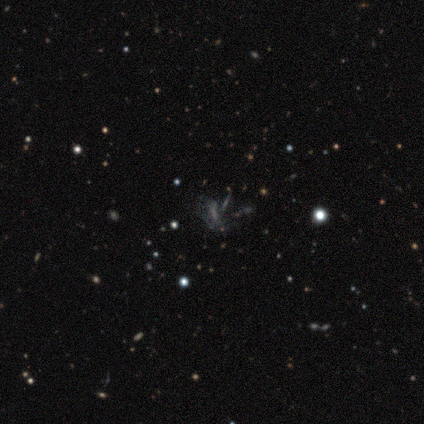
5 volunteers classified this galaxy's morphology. A star or artifact, not a galaxy (80%).